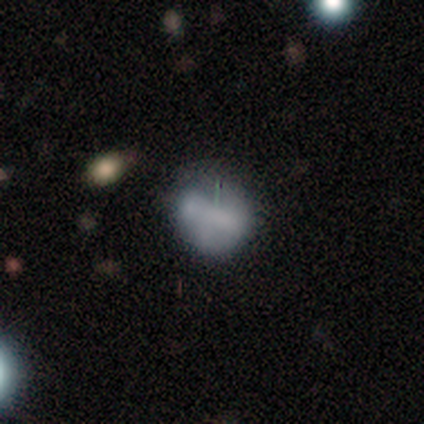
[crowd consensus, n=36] This appears to be a smooth galaxy with no disk features (53%) that is round (68%). Merging: none (34%, tied with minor disturbance).